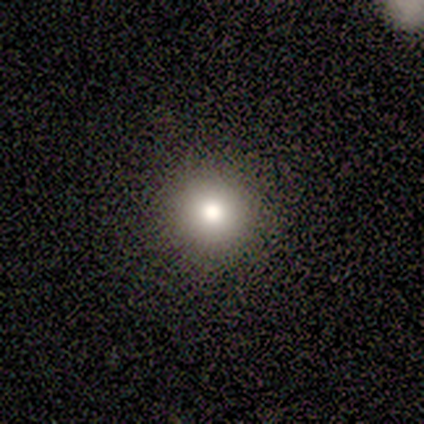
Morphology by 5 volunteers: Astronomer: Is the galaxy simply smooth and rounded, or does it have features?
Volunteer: smooth — 100%.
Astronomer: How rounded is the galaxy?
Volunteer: round — 100%.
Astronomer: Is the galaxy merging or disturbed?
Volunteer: none — 100%.